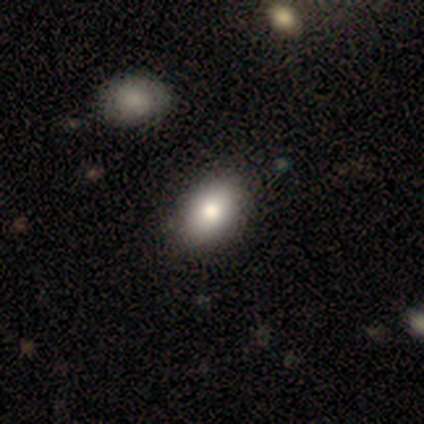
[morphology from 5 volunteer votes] This appears to be a smooth galaxy with no disk features (100%) that is in between round and cigar-shaped (100%). Merging: none (100%).